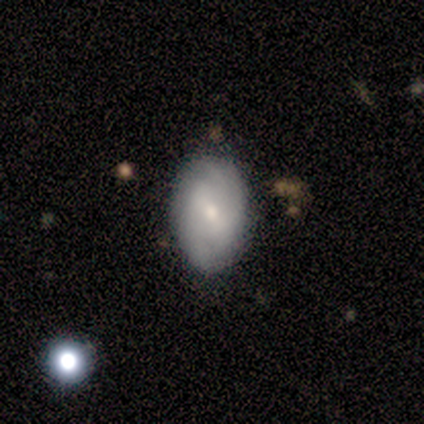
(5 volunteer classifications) Volunteers were most divided on "merging": none: 60%, minor disturbance: 40%, major disturbance: 0%, merger: 0%. More confident: smooth or featured — smooth (80%); how rounded — in between (75%).